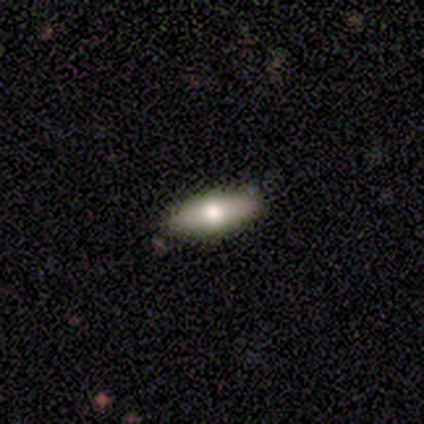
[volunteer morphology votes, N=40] Smooth or featured: smooth — 55% (featured or disk — 30%)
How rounded: in between — 68% (cigar-shaped — 32%)
Merging: none — 88% (minor disturbance — 9%)